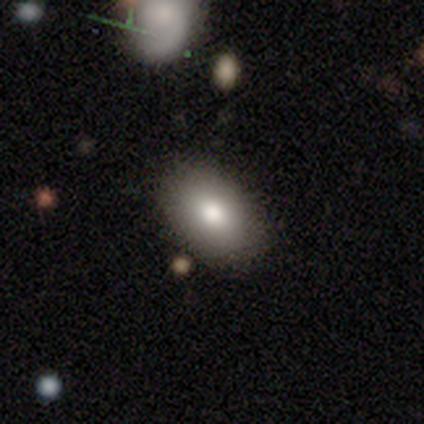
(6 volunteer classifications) Volunteers were most divided on "smooth or featured": smooth: 83%, featured or disk: 17%, star or artifact: 0%. More confident: how rounded — in between (100%); merging — none (100%).